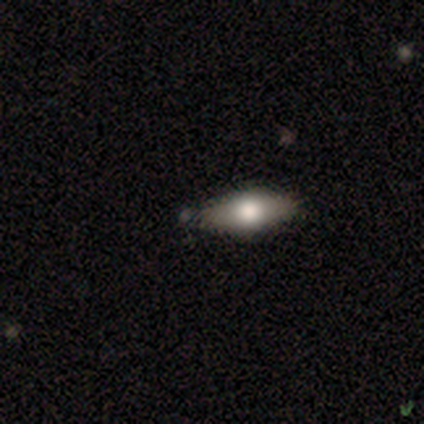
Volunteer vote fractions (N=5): Q: Smooth or featured?
A: smooth (80%); runner-up: featured or disk (20%)
Q: How rounded?
A: cigar-shaped (75%); runner-up: in between (25%)
Q: Merging?
A: none (80%); runner-up: minor disturbance (20%)